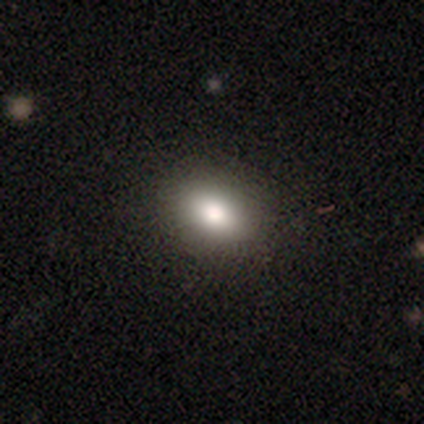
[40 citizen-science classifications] Morphology: type=smooth (90%); roundness=in between (69%); merging=none (71%).